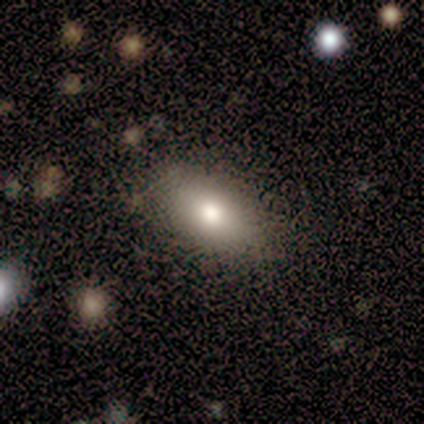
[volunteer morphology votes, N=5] Smooth or featured? 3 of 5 (60%) said smooth. How rounded? 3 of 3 (100%) said in between. Merging? 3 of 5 (60%) said none.